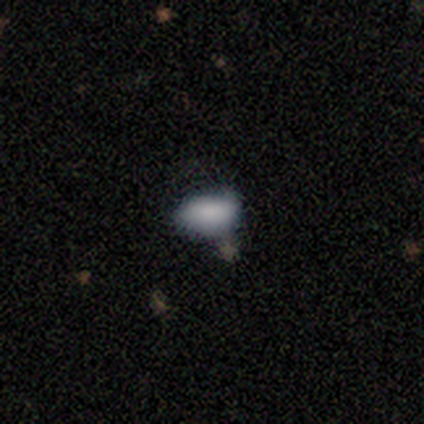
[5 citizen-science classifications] Q: Smooth or featured?
A: smooth (100%)
Q: How rounded?
A: in between (100%)
Q: Merging?
A: minor disturbance (40%); tied with: merger (40%)